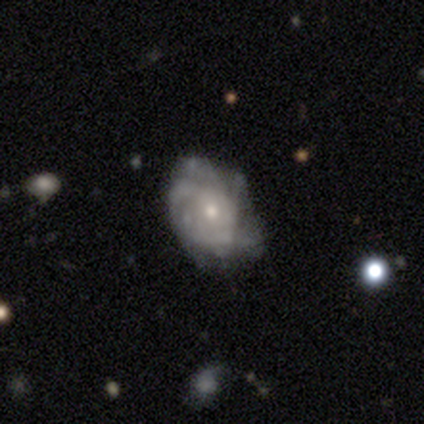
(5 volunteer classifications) Morphology: type=featured or disk (100%); edge-on=no (100%); bar=no (80%); spiral arms=yes (100%); winding=tight (40%, tied with medium); arm count=can't tell (60%); bulge=moderate (40%, tied with small); merging=none (80%).